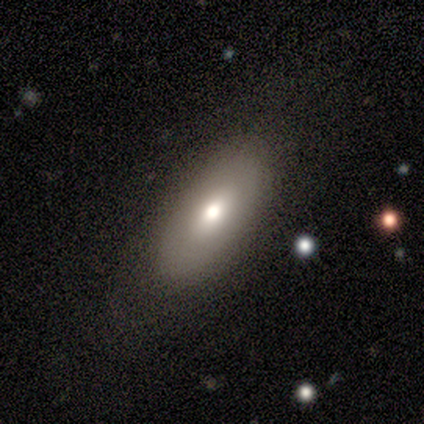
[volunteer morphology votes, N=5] Q: Smooth or featured?
A: smooth (80%); runner-up: featured or disk (20%)
Q: How rounded?
A: in between (100%)
Q: Merging?
A: none (80%); runner-up: minor disturbance (20%)